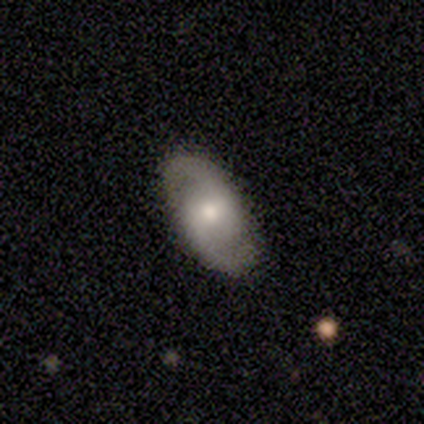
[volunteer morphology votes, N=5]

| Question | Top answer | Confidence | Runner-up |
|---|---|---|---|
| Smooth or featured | featured or disk | 100% | — |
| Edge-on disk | no | 100% | — |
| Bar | weak | 60% | no (40%) |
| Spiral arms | yes | 100% | — |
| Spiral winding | medium | 60% | tight (20%) |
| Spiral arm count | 2 | 100% | — |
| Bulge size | moderate | 40% | large (20%) |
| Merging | none | 100% | — |